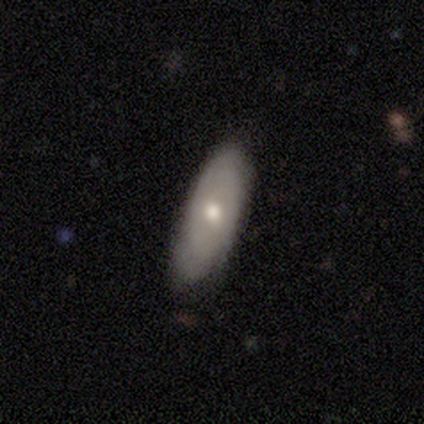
smooth 65%, featured or disk 35%, star or artifact 0%. Down the decision tree: how rounded — in between (77%); merging — none (57%).